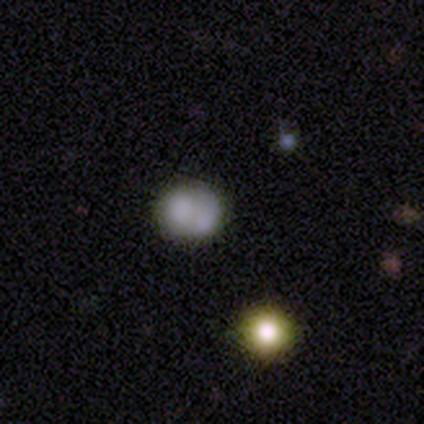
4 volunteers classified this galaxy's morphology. smooth-or-featured: smooth: 50% (tied) | featured or disk: 50% (tied) | star or artifact: 0%
  how-rounded: round: 50% (tied) | in between: 50% (tied) | cigar-shaped: 0%
  merging: none: 50% (tied) | merger: 50% (tied) | minor disturbance: 0% | major disturbance: 0%